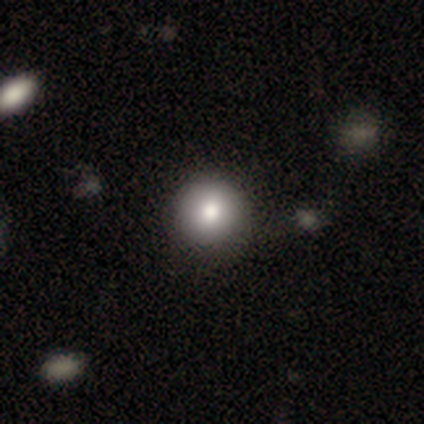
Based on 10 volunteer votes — This appears to be a smooth galaxy with no disk features (80%) that is round (88%). Merging: none (89%).